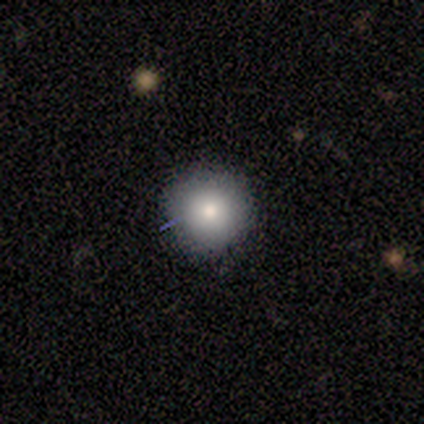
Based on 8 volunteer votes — smooth-or-featured: smooth: 75% | featured or disk: 25% | star or artifact: 0%
  how-rounded: round: 100% | in between: 0% | cigar-shaped: 0%
  merging: none: 75% | minor disturbance: 12% | major disturbance: 12% | merger: 0%